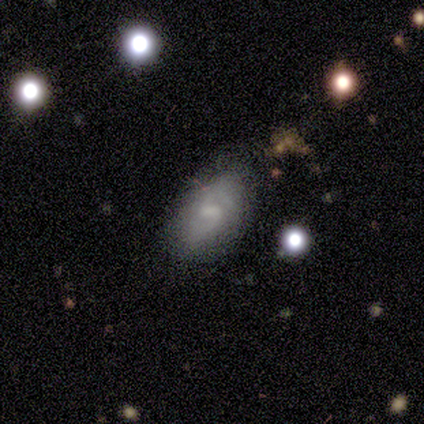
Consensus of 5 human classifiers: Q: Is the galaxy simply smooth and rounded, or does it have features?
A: featured or disk — 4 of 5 (80%).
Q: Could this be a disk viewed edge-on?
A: no — 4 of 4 (100%).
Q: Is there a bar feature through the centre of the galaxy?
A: no — 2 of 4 (50%).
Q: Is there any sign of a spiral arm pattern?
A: yes — 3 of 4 (75%).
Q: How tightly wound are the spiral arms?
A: loose — 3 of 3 (100%).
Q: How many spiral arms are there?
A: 2 — 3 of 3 (100%).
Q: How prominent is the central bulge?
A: large — 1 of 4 (25%, tied with moderate, small and none).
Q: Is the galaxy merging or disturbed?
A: none — 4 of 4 (100%).